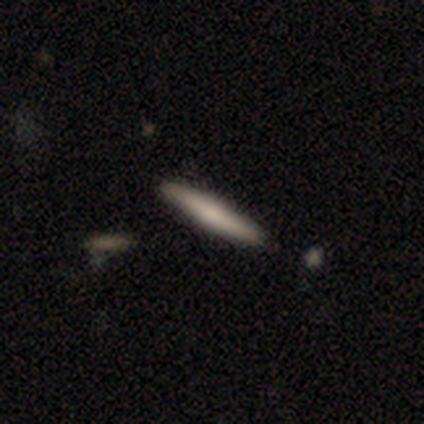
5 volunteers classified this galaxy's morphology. Overall: smooth (80%). How rounded: cigar-shaped (100%). Merging: none (100%).